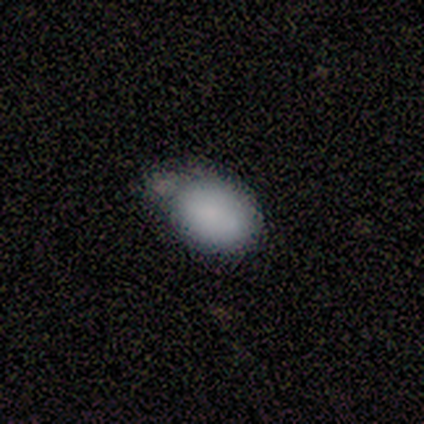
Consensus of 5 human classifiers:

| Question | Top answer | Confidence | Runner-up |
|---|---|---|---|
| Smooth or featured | smooth | 80% | featured or disk (20%) |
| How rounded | in between | 75% | round (25%) |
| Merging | none | 40% | tied: minor disturbance (40%) |